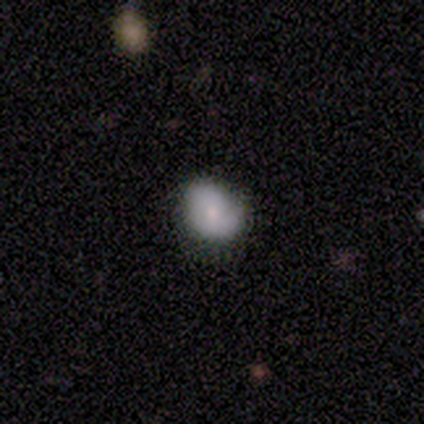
Smooth or featured?
  - smooth: 100% *
  - featured or disk: 0%
  - star or artifact: 0%
How rounded?
  - round: 75% *
  - in between: 25%
  - cigar-shaped: 0%
Merging?
  - none: 50% * (tied)
  - minor disturbance: 50% * (tied)
  - major disturbance: 0%
  - merger: 0%